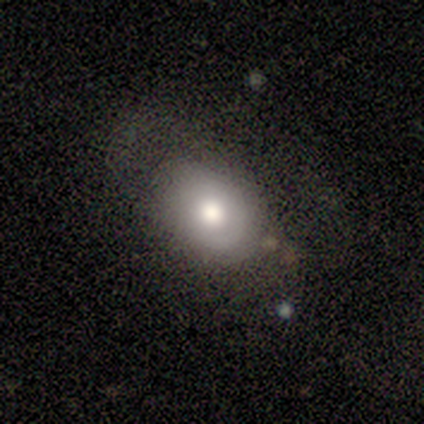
Morphology: type=smooth (55%); roundness=in between (81%); merging=none (38%).